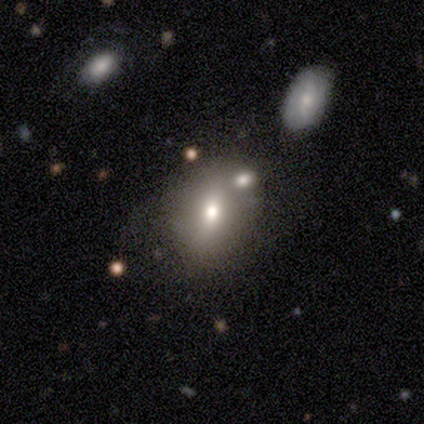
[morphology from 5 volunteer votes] Smooth or featured?
  - featured or disk: 60% *
  - smooth: 20%
  - star or artifact: 20%
Edge-on disk?
  - no: 100% *
  - yes: 0%
Bar?
  - no: 100% *
  - strong: 0%
  - weak: 0%
Spiral arms?
  - no: 100% *
  - yes: 0%
Bulge size?
  - moderate: 67% *
  - large: 33%
  - dominant: 0%
  - small: 0%
  - none: 0%
Merging?
  - none: 50% * (tied)
  - merger: 50% * (tied)
  - minor disturbance: 0%
  - major disturbance: 0%